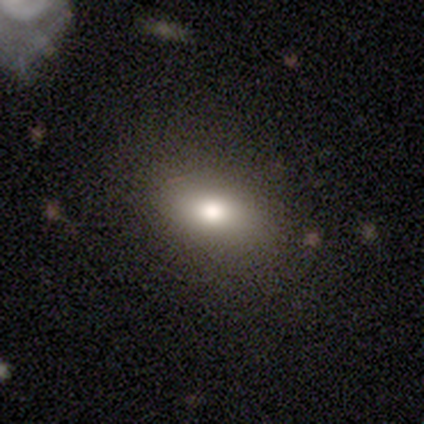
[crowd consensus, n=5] A smooth galaxy with no disk features (80%) that is in between round and cigar-shaped (100%).

Vote fractions:
- Smooth or featured? smooth: 80% / star or artifact: 20% / featured or disk: 0%
- How rounded? in between: 100% / round: 0% / cigar-shaped: 0%
- Merging? none: 75% / minor disturbance: 25% / major disturbance: 0% / merger: 0%